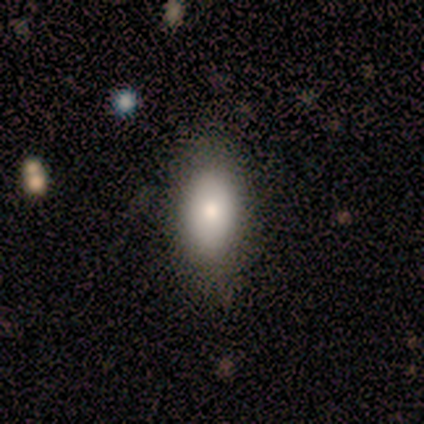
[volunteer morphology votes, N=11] Overall: smooth (91%). How rounded: in between (60%; round 40%). Merging: none (100%).